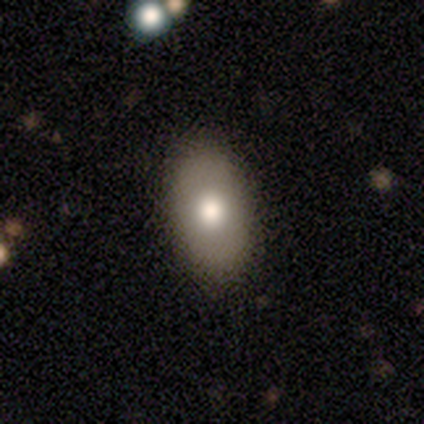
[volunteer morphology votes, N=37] A smooth galaxy with no disk features (76%) that is in between round and cigar-shaped (100%).

Vote fractions:
- Smooth or featured? smooth: 76% / featured or disk: 19% / star or artifact: 5%
- How rounded? in between: 100% / round: 0% / cigar-shaped: 0%
- Merging? none: 83% / minor disturbance: 14% / merger: 3% / major disturbance: 0%